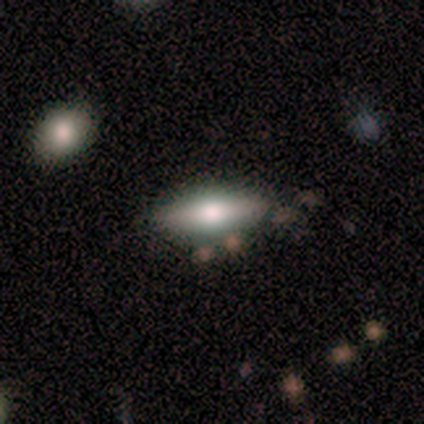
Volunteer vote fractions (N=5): smooth 60%, featured or disk 40%, star or artifact 0%. Down the decision tree: how rounded — in between (100%); merging — none (60%).